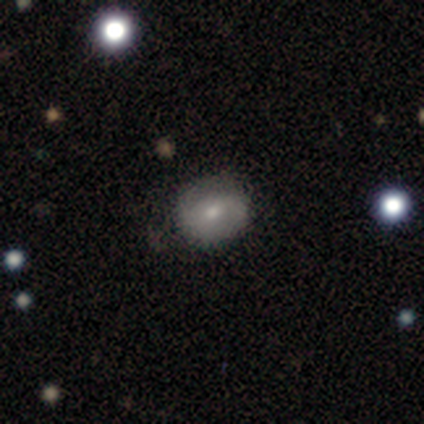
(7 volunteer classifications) Overall: smooth (57%; featured or disk 29%). How rounded: in between (100%). Merging: none (83%).